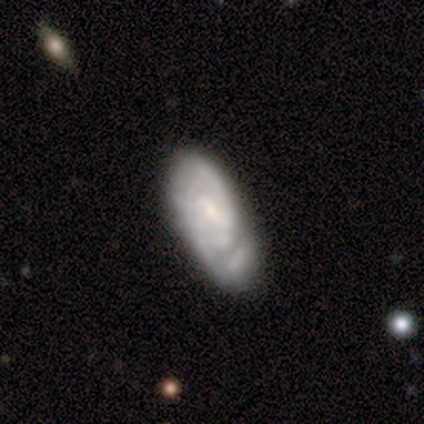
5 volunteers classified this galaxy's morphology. A featured or disk galaxy (80%) with a weak bar (50%), 2 (67%) tight (33%, tied with medium and loose) spiral arms (75%) and a small central bulge (75%). Merging: none (50%).